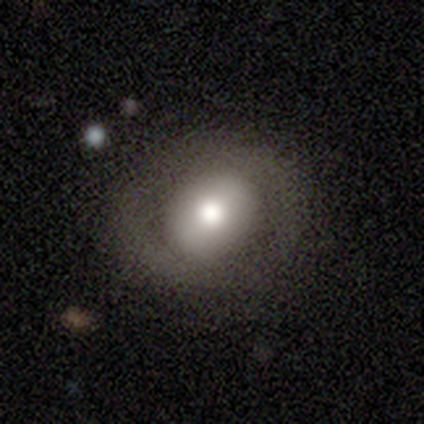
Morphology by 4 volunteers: Volunteers were most divided on "smooth or featured" (2-way tie): smooth: 50%, featured or disk: 50%, star or artifact: 0%. More confident: how rounded — round (100%); merging — none (75%).